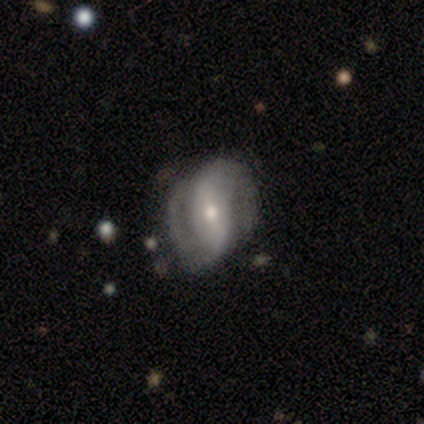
smooth-or-featured: featured or disk: 100% | smooth: 0% | star or artifact: 0%
  disk-edge-on: no: 100% | yes: 0%
    bar: no: 57% | strong: 29% | weak: 14%
    has-spiral-arms: yes: 100% | no: 0%
      spiral-winding: medium: 57% | loose: 43% | tight: 0%
      spiral-arm-count: 2: 86% | can't tell: 14% | 1: 0% | 3: 0% | 4: 0% | more than 4: 0%
    bulge-size: small: 57% | moderate: 43% | dominant: 0% | large: 0% | none: 0%
  merging: none: 57% | minor disturbance: 29% | major disturbance: 14% | merger: 0%